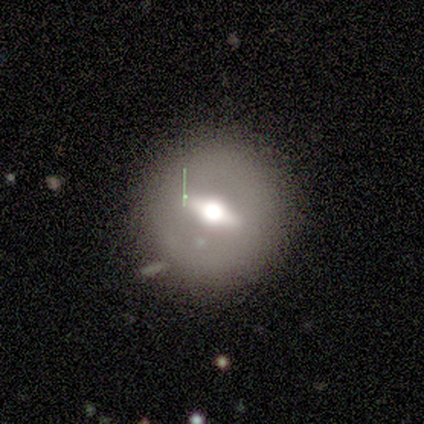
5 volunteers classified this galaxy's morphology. Overall: featured or disk (80%). Edge-on disk: yes (75%). Edge-on bulge: rounded (100%). Merging: none (80%).